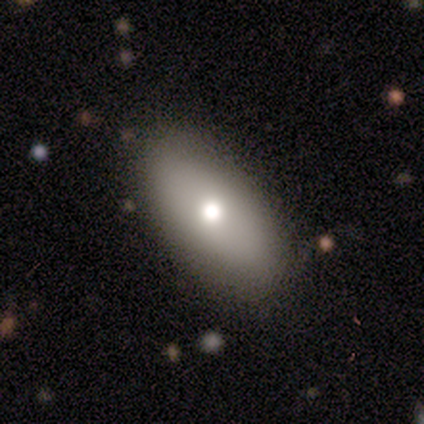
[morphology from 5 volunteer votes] Smooth or featured: featured or disk — 60% (smooth — 40%)
Edge-on disk: no — 100%
Bar: no — 100%
Spiral arms: no — 100%
Bulge size: small — 67% (moderate — 33%)
Merging: none — 80% (minor disturbance — 20%)